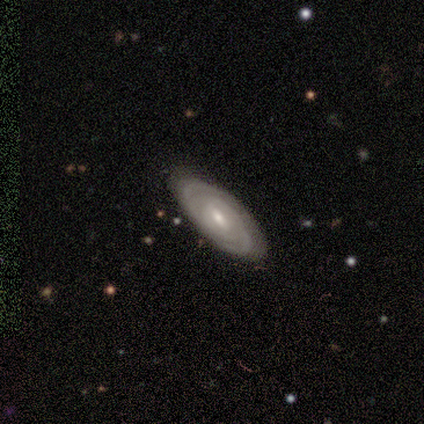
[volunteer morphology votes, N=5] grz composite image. It shows a featured or disk galaxy (80%) with a weak bar (75%), tight (75%) spiral arms (100%) and a moderate central bulge (50%, tied with small). Merging: none (100%).